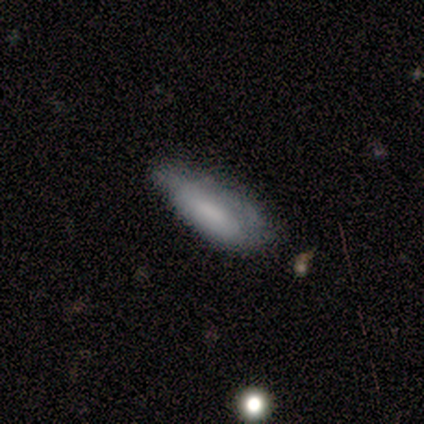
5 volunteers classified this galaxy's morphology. Smooth or featured? smooth (80%)
How rounded? in between (100%)
Merging? none (40%, tied with major disturbance)